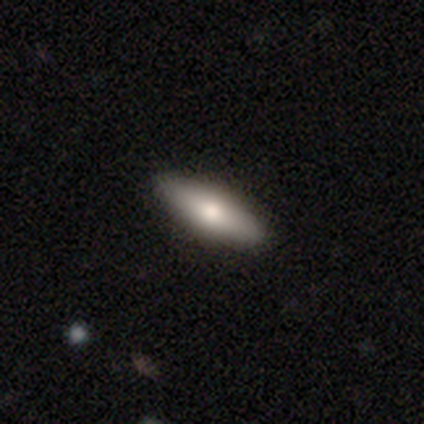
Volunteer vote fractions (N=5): Morphology: type=smooth (60%); roundness=in between (67%); merging=none (100%).